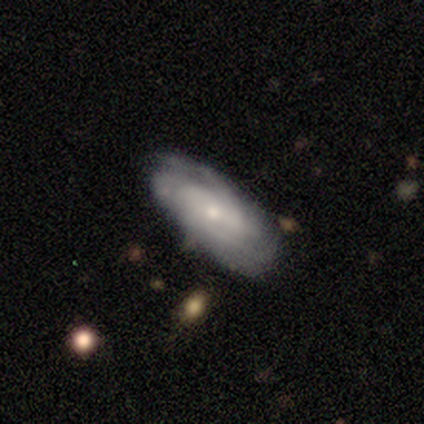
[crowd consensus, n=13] Smooth or featured? 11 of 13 (85%) said featured or disk. Edge-on disk? 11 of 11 (100%) said no. Bar? 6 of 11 (55%) said no. Spiral arms? 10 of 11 (91%) said yes. Spiral winding? 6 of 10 (60%) said tight. Spiral arm count? 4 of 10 (40%) said 2. Bulge size? 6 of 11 (55%) said small. Merging? 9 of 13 (69%) said none.